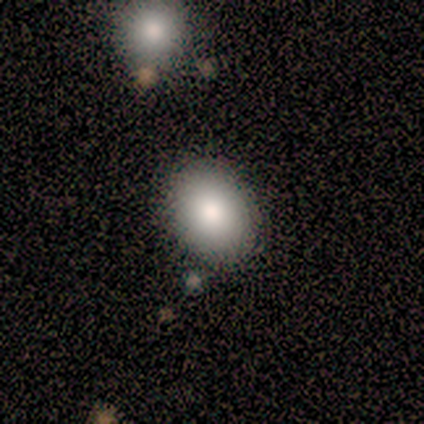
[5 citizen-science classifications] Smooth or featured?
  - smooth: 80% *
  - featured or disk: 20%
  - star or artifact: 0%
How rounded?
  - in between: 100% *
  - round: 0%
  - cigar-shaped: 0%
Merging?
  - none: 80% *
  - minor disturbance: 20%
  - major disturbance: 0%
  - merger: 0%